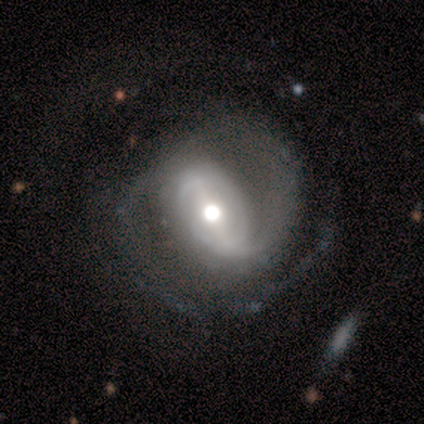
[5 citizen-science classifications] featured or disk 100%, smooth 0%, star or artifact 0%. Down the decision tree: edge-on disk — no (100%); bar — strong (40%, tied with weak); spiral arms — yes (80%); spiral arm count — 2 (50%); spiral winding — medium (100%); bulge size — moderate (80%); merging — none (60%).